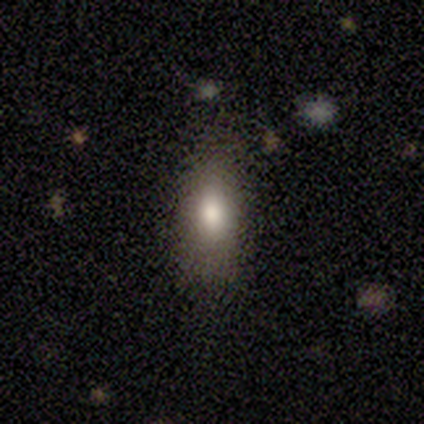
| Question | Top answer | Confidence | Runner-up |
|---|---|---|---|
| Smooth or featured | smooth | 100% | — |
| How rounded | in between | 60% | cigar-shaped (40%) |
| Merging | none | 100% | — |